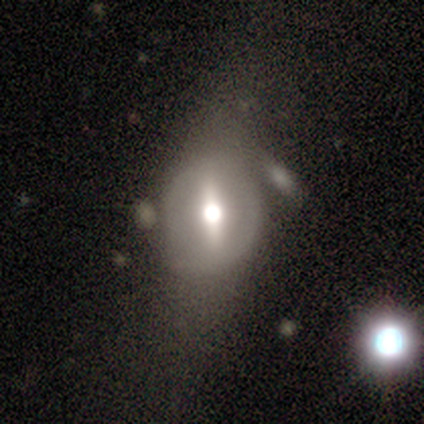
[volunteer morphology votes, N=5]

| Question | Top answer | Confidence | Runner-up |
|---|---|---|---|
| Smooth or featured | smooth | 40% | tied: featured or disk (40%) |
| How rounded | in between | 100% | — |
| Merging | minor disturbance | 50% | tied: merger (50%) |